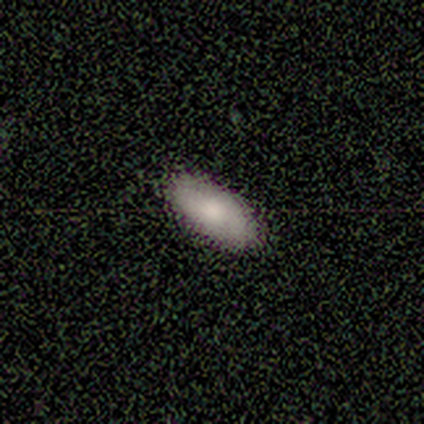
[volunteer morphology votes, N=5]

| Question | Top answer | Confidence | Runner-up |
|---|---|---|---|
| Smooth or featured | smooth | 60% | featured or disk (20%) |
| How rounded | in between | 100% | — |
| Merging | none | 100% | — |